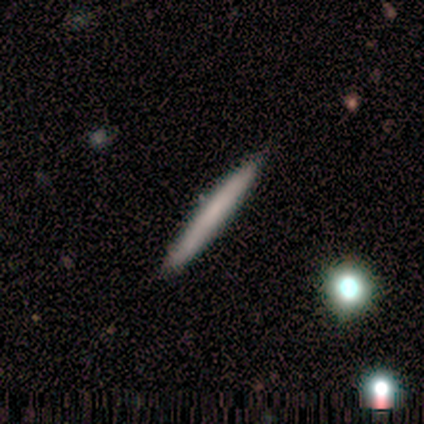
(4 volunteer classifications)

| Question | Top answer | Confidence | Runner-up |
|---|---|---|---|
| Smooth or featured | smooth | 50% | tied: featured or disk (50%) |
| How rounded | cigar-shaped | 100% | — |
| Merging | none | 100% | — |